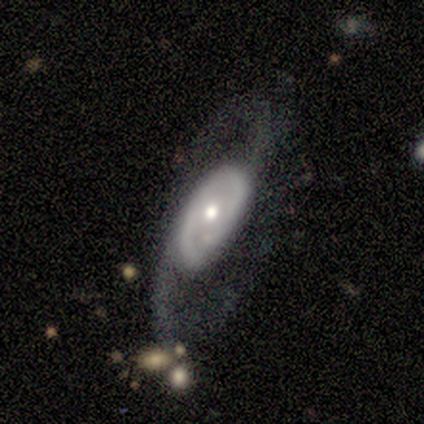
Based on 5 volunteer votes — smooth_or_featured: featured or disk (p=0.60) [alt: smooth p=0.40]
disk_edge_on: no (p=1.00)
bar: no (p=0.67) [alt: weak p=0.33]
has_spiral_arms: yes (p=1.00)
spiral_winding: medium (p=0.67) [alt: tight p=0.33]
spiral_arm_count: 2 (p=1.00)
bulge_size: small (p=0.67) [alt: large p=0.33]
merging: none (p=0.40) [tied with: major disturbance p=0.40]